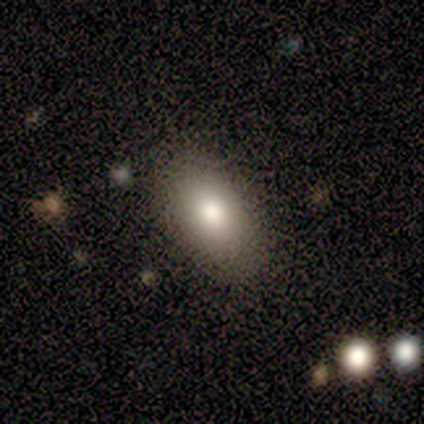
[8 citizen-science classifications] A smooth galaxy with no disk features (88%) that is in between round and cigar-shaped (86%).

Vote fractions:
- Smooth or featured? smooth: 88% / star or artifact: 12% / featured or disk: 0%
- How rounded? in between: 86% / cigar-shaped: 14% / round: 0%
- Merging? none: 100% / minor disturbance: 0% / major disturbance: 0% / merger: 0%